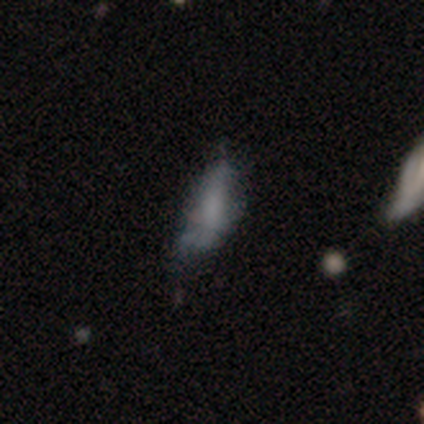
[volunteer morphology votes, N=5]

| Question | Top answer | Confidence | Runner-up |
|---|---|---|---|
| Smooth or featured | featured or disk | 80% | smooth (20%) |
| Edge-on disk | no | 100% | — |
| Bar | no | 50% | strong (25%) |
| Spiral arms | no | 75% | yes (25%) |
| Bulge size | none | 100% | — |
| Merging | none | 40% | minor disturbance (20%) |